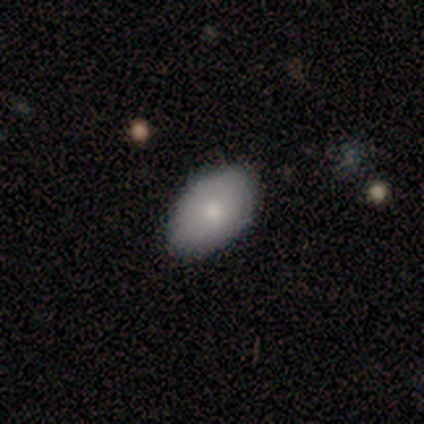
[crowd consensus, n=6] A smooth galaxy with no disk features (83%) that is in between round and cigar-shaped (100%).

Vote fractions:
- Smooth or featured? smooth: 83% / star or artifact: 17% / featured or disk: 0%
- How rounded? in between: 100% / round: 0% / cigar-shaped: 0%
- Merging? none: 80% / minor disturbance: 20% / major disturbance: 0% / merger: 0%